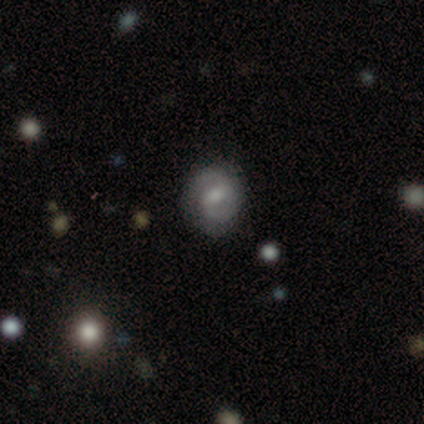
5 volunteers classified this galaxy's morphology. Smooth or featured?
  - smooth: 60% *
  - featured or disk: 40%
  - star or artifact: 0%
How rounded?
  - round: 100% *
  - in between: 0%
  - cigar-shaped: 0%
Merging?
  - none: 100% *
  - minor disturbance: 0%
  - major disturbance: 0%
  - merger: 0%